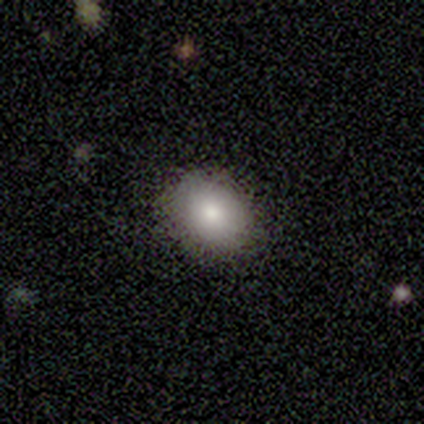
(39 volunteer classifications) Smooth or featured? smooth (67%)
How rounded? round (62%)
Merging? none (85%)